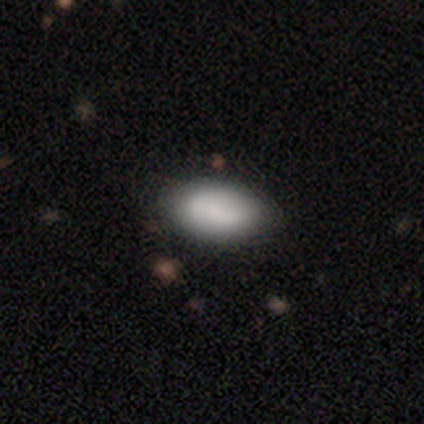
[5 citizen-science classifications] This is likely a smooth galaxy (60%). How rounded: clearly in between (100%). Merging: clearly none (80%).